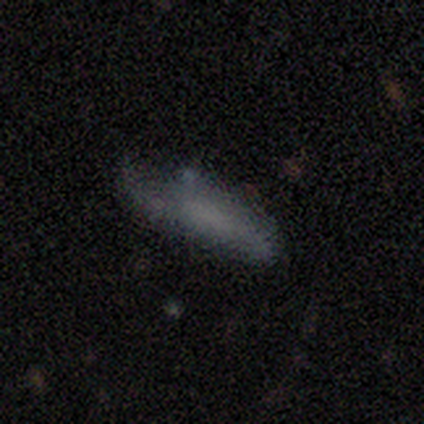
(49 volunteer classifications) This appears to be a smooth galaxy with no disk features (61%) that is cigar-shaped (53%). Merging: none (46%).